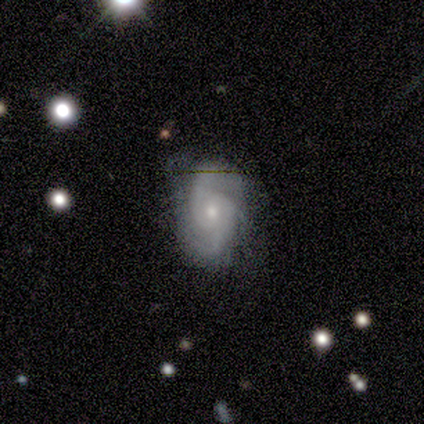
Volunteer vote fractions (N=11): smooth_or_featured: featured or disk (p=1.00)
disk_edge_on: no (p=1.00)
bar: no (p=0.64) [alt: weak p=0.27]
has_spiral_arms: yes (p=0.91) [alt: no p=0.09]
spiral_winding: tight (p=0.50) [tied with: medium p=0.50]
spiral_arm_count: 2 (p=0.50) [alt: 3 p=0.30]
bulge_size: small (p=0.73) [alt: moderate p=0.27]
merging: none (p=0.91) [alt: minor disturbance p=0.09]